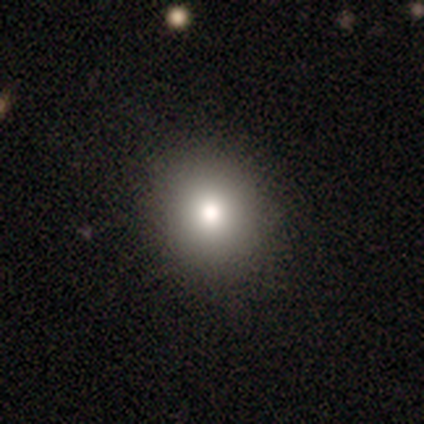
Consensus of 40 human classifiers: smooth 82%, featured or disk 10%, star or artifact 8%. Down the decision tree: how rounded — round (91%); merging — none (95%).